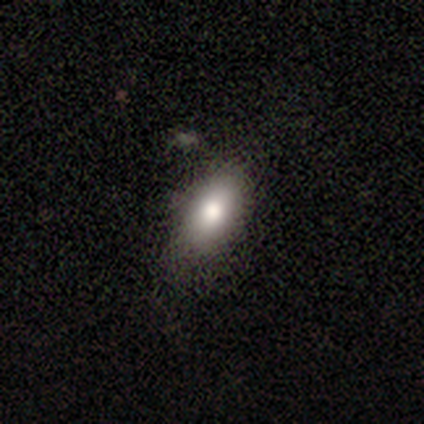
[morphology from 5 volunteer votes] smooth_or_featured: smooth (p=1.00)
how_rounded: in between (p=1.00)
merging: none (p=0.60) [alt: minor disturbance p=0.40]